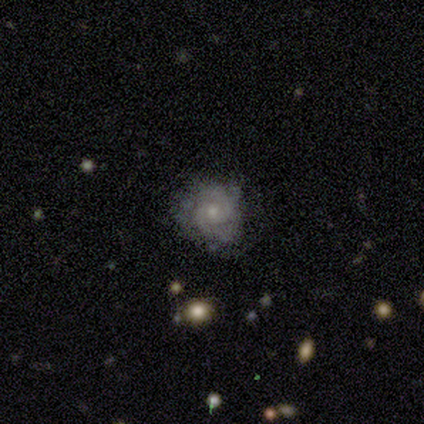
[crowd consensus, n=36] This appears to be a featured or disk galaxy (75%) with no bar (81%), 2 (61%) tight (65%) spiral arms (85%) and a small central bulge (70%). Merging: none (85%).